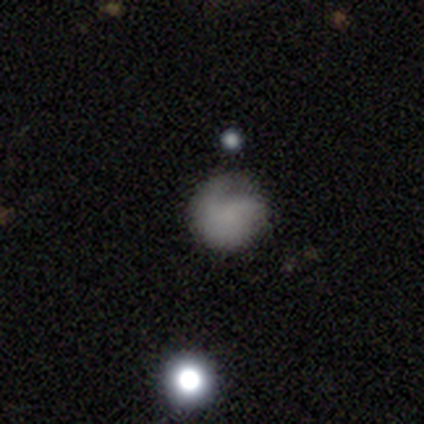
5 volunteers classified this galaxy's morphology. type=smooth (80%); roundness=round (100%); merging=none (60%).